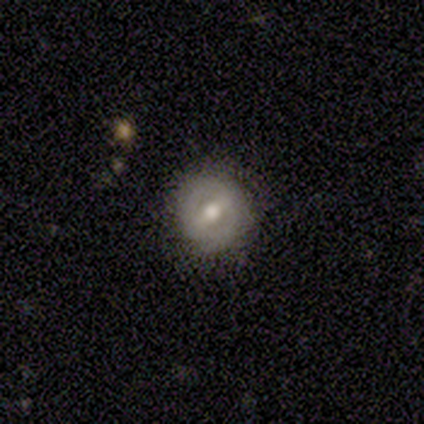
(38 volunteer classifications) This appears to be a featured or disk galaxy (71%) with a strong bar (52%), no spiral arms (56%) and a moderate central bulge (89%). Merging: none (78%).